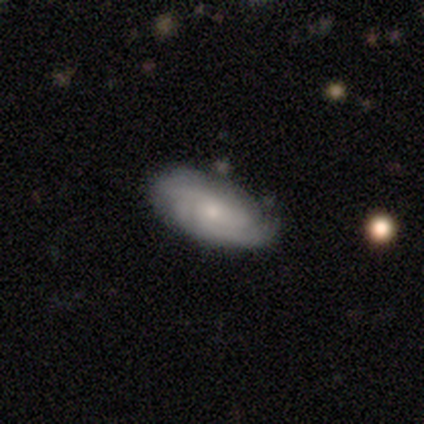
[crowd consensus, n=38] This is likely a featured or disk galaxy (63%). It is clearly not viewed edge-on (100%). Bar: clearly no (88%). Spiral arm pattern: clearly yes (92%). Spiral arm count: marginally 3 (41%, tied with can't tell). Spiral winding: possibly medium (55%). Central bulge: likely small (67%). Merging: likely none (76%).